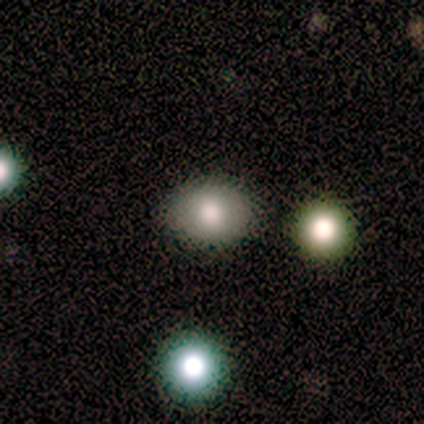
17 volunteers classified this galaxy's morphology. Smooth or featured: smooth — 76% (star or artifact — 18%)
How rounded: in between — 69% (round — 31%)
Merging: none — 86% (minor disturbance — 14%)